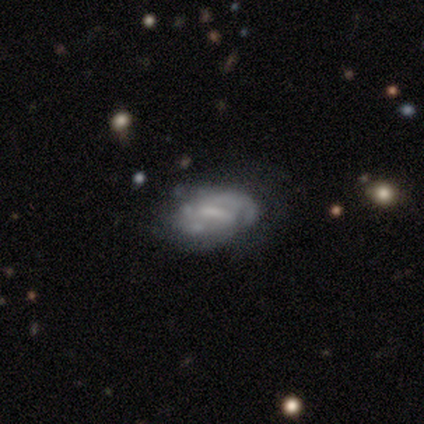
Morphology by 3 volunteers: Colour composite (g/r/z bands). It shows a featured or disk galaxy (100%) with a strong bar (67%), tight (33%, tied with medium and loose) spiral arms (100%) and a moderate central bulge (100%). Merging: minor disturbance (67%).